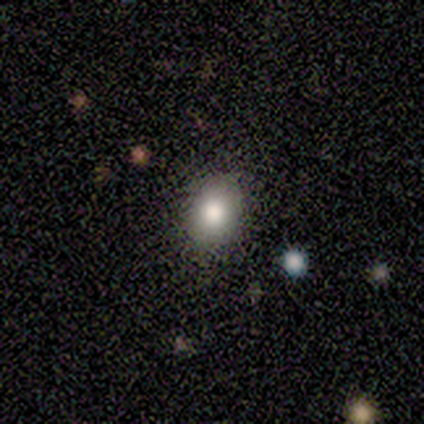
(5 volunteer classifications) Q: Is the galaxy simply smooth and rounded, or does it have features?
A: smooth — 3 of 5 (60%).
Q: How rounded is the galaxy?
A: round — 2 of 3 (67%).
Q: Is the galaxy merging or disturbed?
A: none — 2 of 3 (67%).